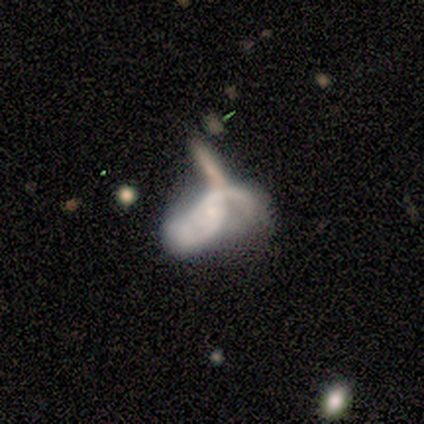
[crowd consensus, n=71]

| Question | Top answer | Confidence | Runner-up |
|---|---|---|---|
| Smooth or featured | featured or disk | 77% | smooth (18%) |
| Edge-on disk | no | 98% | yes (2%) |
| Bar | no | 81% | weak (17%) |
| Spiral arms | yes | 83% | no (17%) |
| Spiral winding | medium | 51% | loose (44%) |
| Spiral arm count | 2 | 80% | can't tell (18%) |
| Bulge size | small | 59% | moderate (24%) |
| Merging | merger | 40% | minor disturbance (24%) |